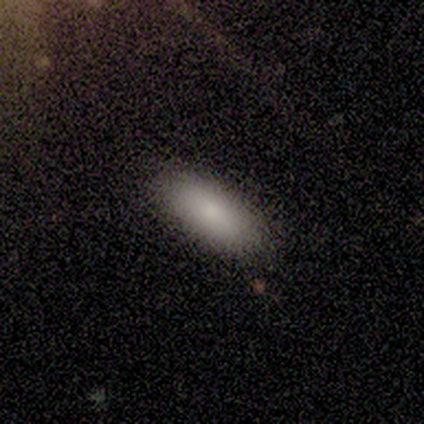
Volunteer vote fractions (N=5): A smooth galaxy with no disk features (80%) that is in between round and cigar-shaped (50%, tied with cigar-shaped).

Vote fractions:
- Smooth or featured? smooth: 80% / star or artifact: 20% / featured or disk: 0%
- How rounded? in between: 50% (tied) / cigar-shaped: 50% (tied) / round: 0%
- Merging? none: 100% / minor disturbance: 0% / major disturbance: 0% / merger: 0%